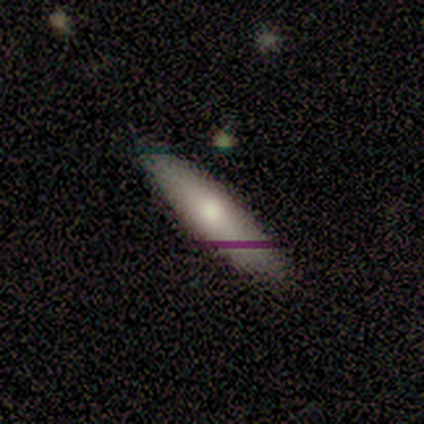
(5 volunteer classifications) Smooth or featured: featured or disk — 60% (smooth — 40%)
Edge-on disk: yes — 67% (no — 33%)
Edge-on bulge: none — 50% (tied with rounded — 50%)
Merging: none — 80% (merger — 20%)